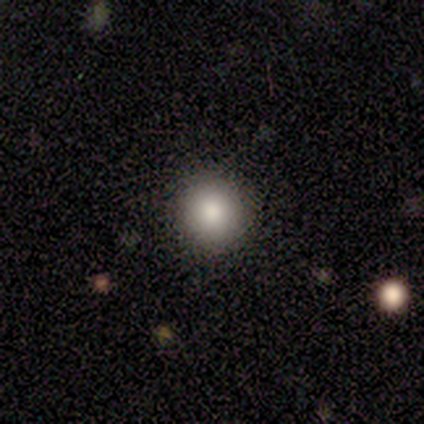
This appears to be a smooth galaxy with no disk features (80%) that is round (75%). Merging: none (100%).